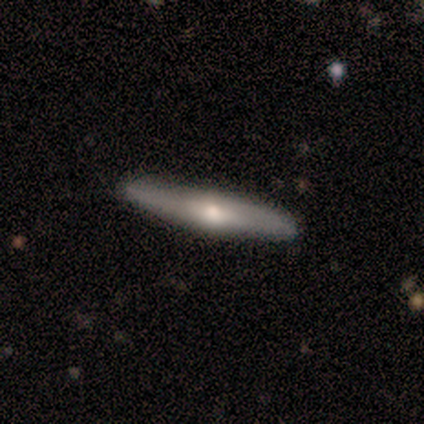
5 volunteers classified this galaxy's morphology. smooth_or_featured: featured or disk (p=0.80) [alt: smooth p=0.20]
disk_edge_on: yes (p=1.00)
edge_on_bulge: rounded (p=1.00)
merging: none (p=0.80) [alt: minor disturbance p=0.20]